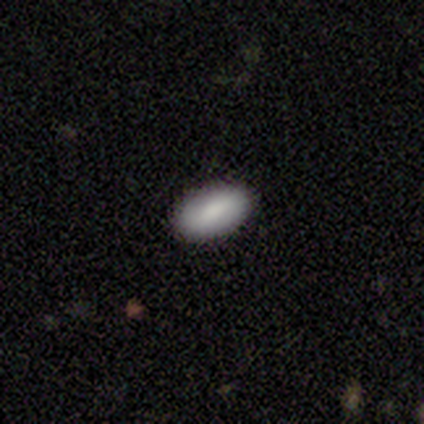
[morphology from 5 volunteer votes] A smooth galaxy with no disk features (100%) that is in between round and cigar-shaped (100%). Merging: none (100%).